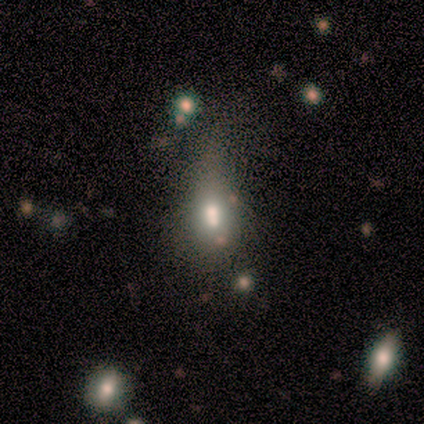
Q: Smooth or featured?
A: smooth (75%); runner-up: star or artifact (25%)
Q: How rounded?
A: in between (100%)
Q: Merging?
A: merger (67%); runner-up: major disturbance (33%)